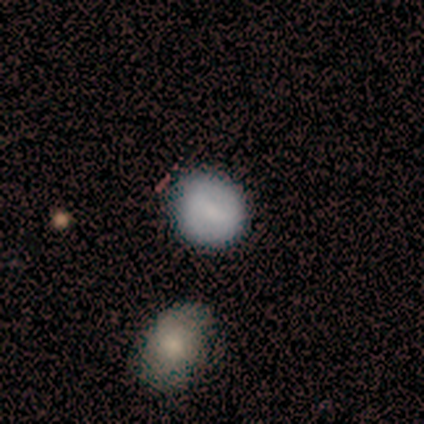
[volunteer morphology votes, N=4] This appears to be a smooth galaxy with no disk features (50%, tied with featured or disk) that is round (100%). Merging: none (75%).